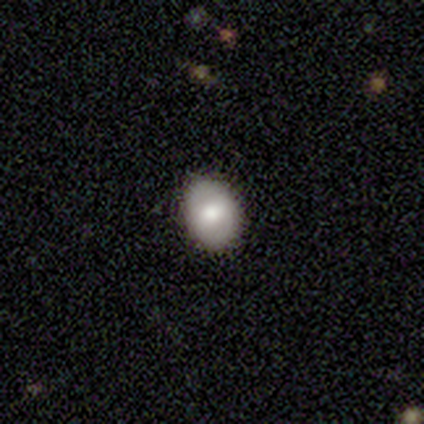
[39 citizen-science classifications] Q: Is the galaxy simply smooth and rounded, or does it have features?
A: smooth — 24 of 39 (62%).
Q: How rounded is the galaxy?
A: in between — 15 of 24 (62%).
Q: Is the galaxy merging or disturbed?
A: none — 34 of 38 (89%).